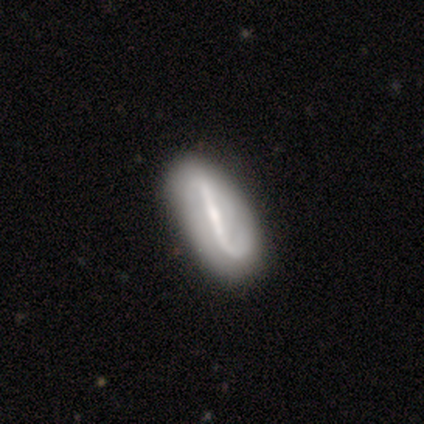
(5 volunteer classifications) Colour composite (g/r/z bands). It shows a featured or disk galaxy (60%) with a strong bar (100%), 1 (50%, tied with 2) tight (50%, tied with loose) spiral arms (100%) and a moderate central bulge (100%). Merging: none (80%).